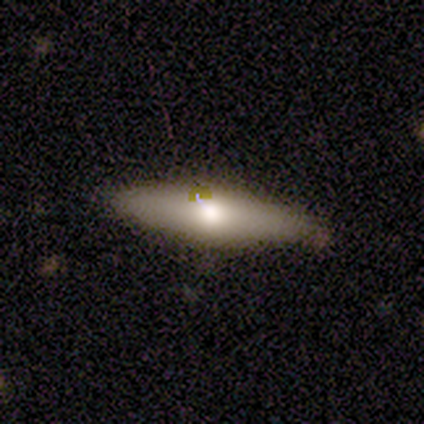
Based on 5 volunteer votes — Morphology: type=smooth (60%); roundness=cigar-shaped (67%); merging=none (100%).